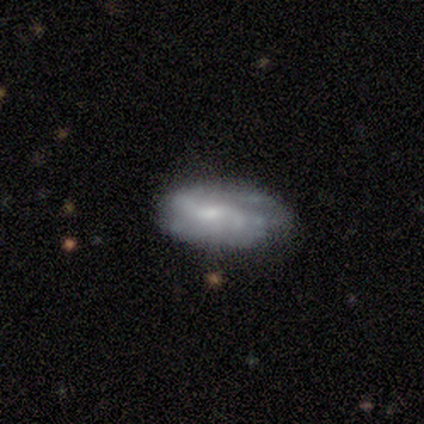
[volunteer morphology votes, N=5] Overall: featured or disk (80%). Edge-on disk: no (100%). Bar: weak (50%, tied with no). Spiral arms: yes (75%). Spiral arm count: 2 (67%; can't tell 33%). Spiral winding: medium (100%). Bulge size: small (75%). Merging: minor disturbance (60%; none 40%).